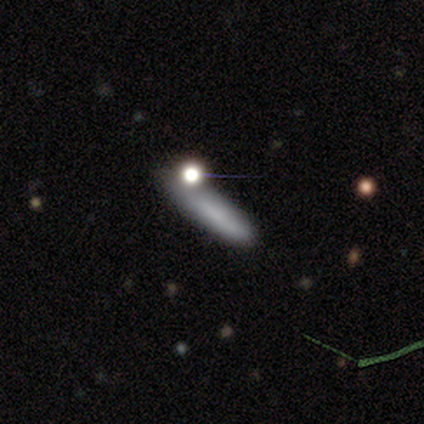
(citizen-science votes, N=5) Volunteers were most divided on "merging": major disturbance: 50%, none: 25%, minor disturbance: 25%, merger: 0%. More confident: how rounded — cigar-shaped (100%); smooth or featured — smooth (60%).